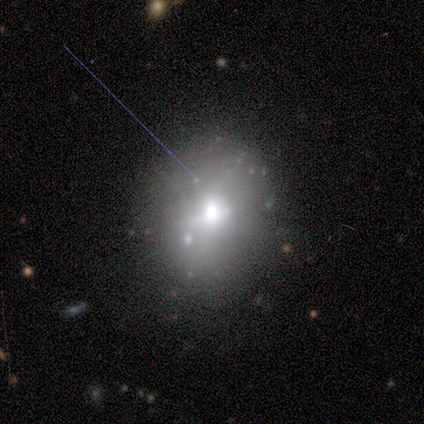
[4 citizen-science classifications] Smooth or featured? 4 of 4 (100%) said star or artifact.